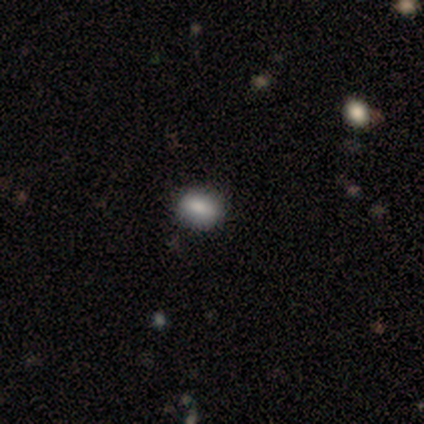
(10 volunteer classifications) A smooth galaxy with no disk features (90%) that is in between round and cigar-shaped (56%). Merging: none (90%).